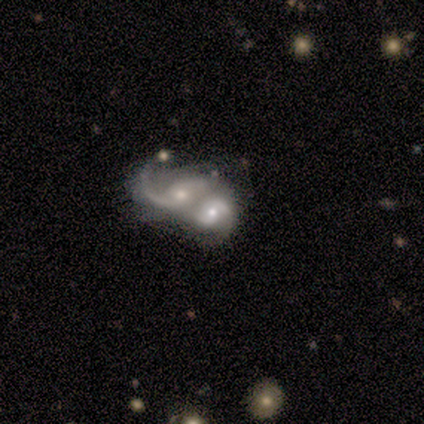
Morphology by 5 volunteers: This appears to be a featured or disk galaxy (100%) with no bar (80%), 2 (50%, tied with can't tell) loose (75%) spiral arms (80%) and a small central bulge (80%). Merging: merger (80%).